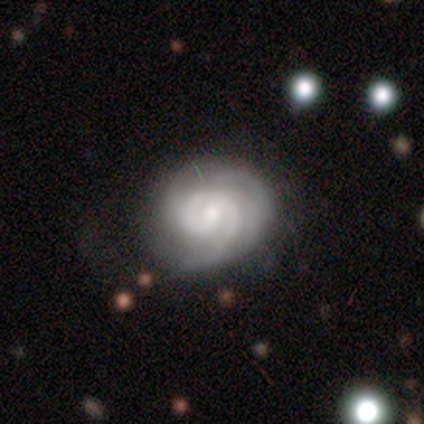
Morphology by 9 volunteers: Smooth or featured? featured or disk (100%)
Edge-on disk? no (100%)
Bar? no (56%)
Spiral arms? yes (100%)
Spiral winding? tight (78%)
Spiral arm count? 2 (44%)
Bulge size? moderate (56%)
Merging? none (67%)